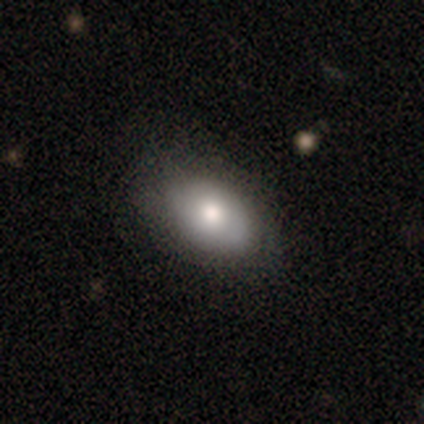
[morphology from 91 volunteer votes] Smooth or featured?
  - smooth: 88% *
  - featured or disk: 9%
  - star or artifact: 3%
How rounded?
  - in between: 94% *
  - round: 6%
  - cigar-shaped: 0%
Merging?
  - none: 75% *
  - minor disturbance: 22%
  - major disturbance: 3%
  - merger: 0%